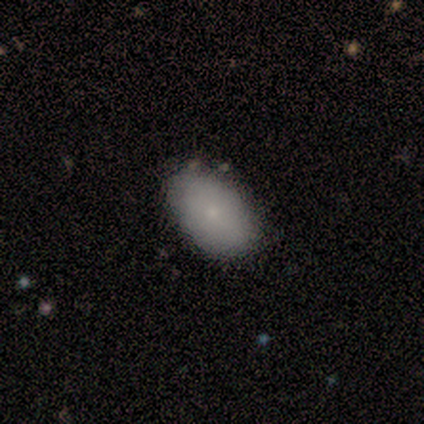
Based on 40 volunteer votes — Smooth or featured? 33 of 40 (82%) said smooth. How rounded? 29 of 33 (88%) said in between. Merging? 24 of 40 (60%) said none.